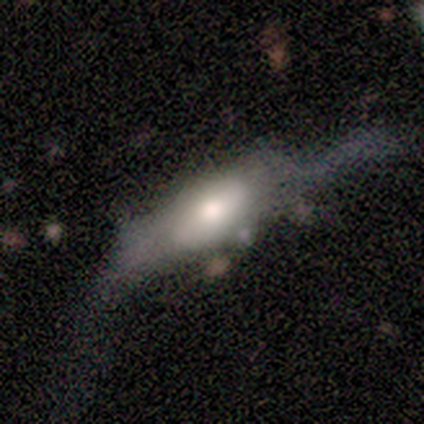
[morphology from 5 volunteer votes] Smooth or featured? smooth (60%)
How rounded? cigar-shaped (67%)
Merging? major disturbance (60%)